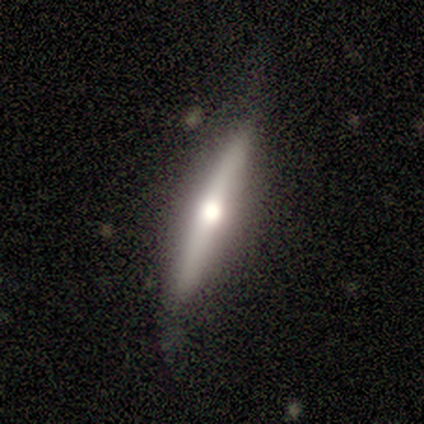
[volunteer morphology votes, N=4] Smooth or featured?
  - featured or disk: 75% *
  - smooth: 25%
  - star or artifact: 0%
Edge-on disk?
  - yes: 100% *
  - no: 0%
Edge-on bulge?
  - rounded: 67% *
  - none: 33%
  - boxy: 0%
Merging?
  - none: 100% *
  - minor disturbance: 0%
  - major disturbance: 0%
  - merger: 0%